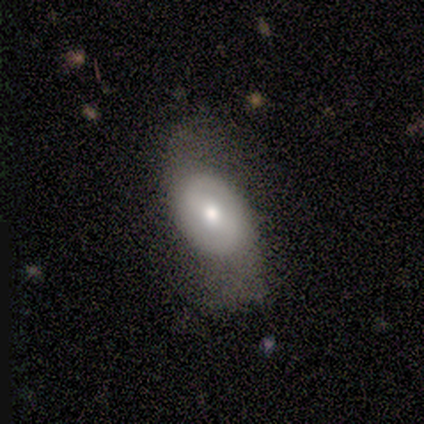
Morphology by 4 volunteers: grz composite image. It shows a featured or disk galaxy (75%) with no bar (67%), 2 (100%) tight (50%, tied with medium) spiral arms (67%) and a moderate central bulge (100%). Merging: minor disturbance (75%).